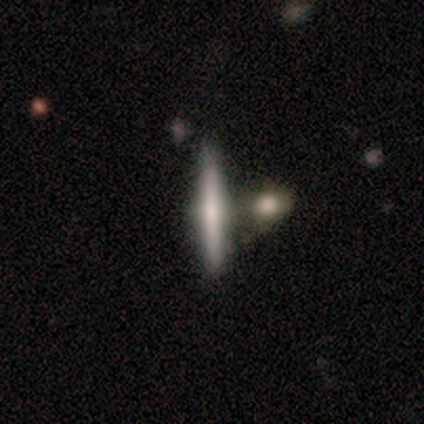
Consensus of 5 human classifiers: A featured or disk galaxy (60%) viewed edge-on (100%) with a rounded central bulge (100%).

Vote fractions:
- Smooth or featured? featured or disk: 60% / smooth: 40% / star or artifact: 0%
- Edge-on disk? yes: 100% / no: 0%
- Edge-on bulge? rounded: 100% / boxy: 0% / none: 0%
- Merging? none: 80% / merger: 20% / minor disturbance: 0% / major disturbance: 0%